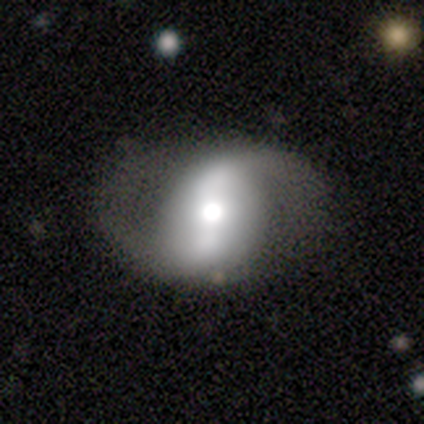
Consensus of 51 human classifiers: featured or disk 86%, smooth 8%, star or artifact 6%. Down the decision tree: edge-on disk — no (100%); bar — strong (68%); spiral arms — yes (98%); spiral arm count — 2 (100%); spiral winding — loose (56%); bulge size — moderate (52%); merging — none (60%).